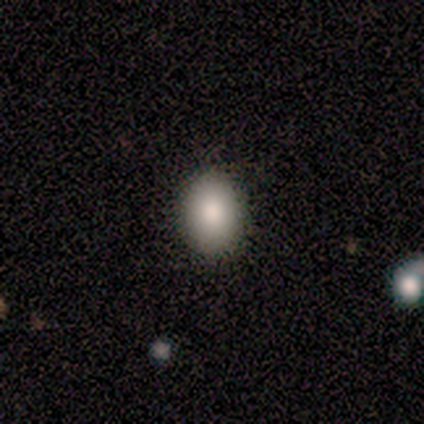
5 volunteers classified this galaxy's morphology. This appears to be a smooth galaxy with no disk features (100%) that is in between round and cigar-shaped (60%). Merging: none (100%).